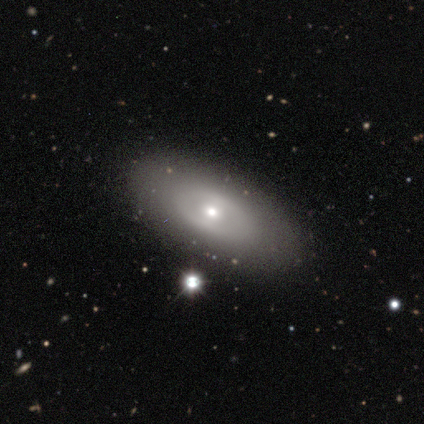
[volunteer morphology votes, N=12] Smooth or featured?
  - smooth: 50% *
  - featured or disk: 42%
  - star or artifact: 8%
How rounded?
  - in between: 100% *
  - round: 0%
  - cigar-shaped: 0%
Merging?
  - none: 91% *
  - minor disturbance: 9%
  - major disturbance: 0%
  - merger: 0%